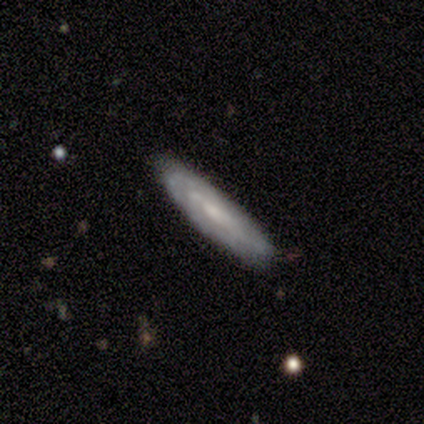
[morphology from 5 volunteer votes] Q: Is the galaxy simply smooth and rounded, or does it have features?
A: featured or disk — 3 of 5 (60%).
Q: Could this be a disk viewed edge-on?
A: no — 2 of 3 (67%).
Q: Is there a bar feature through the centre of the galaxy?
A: no — 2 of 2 (100%).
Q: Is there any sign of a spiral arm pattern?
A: yes — 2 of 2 (100%).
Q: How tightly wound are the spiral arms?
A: tight — 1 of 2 (50%, tied with medium).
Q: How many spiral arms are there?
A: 1 — 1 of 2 (50%, tied with 2).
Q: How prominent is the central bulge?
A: small — 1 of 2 (50%, tied with none).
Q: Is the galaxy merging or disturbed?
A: none — 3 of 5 (60%).